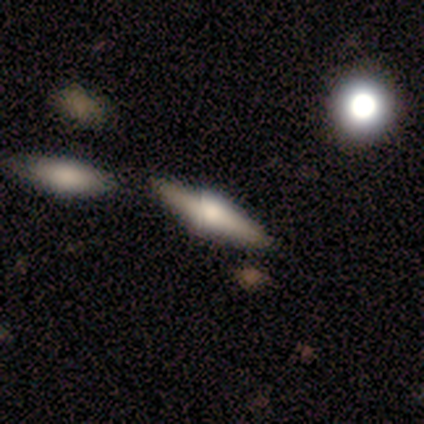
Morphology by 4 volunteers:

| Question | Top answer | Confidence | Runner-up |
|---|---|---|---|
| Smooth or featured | smooth | 50% | tied: featured or disk (50%) |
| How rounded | in between | 50% | tied: cigar-shaped (50%) |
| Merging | none | 50% | minor disturbance (25%) |